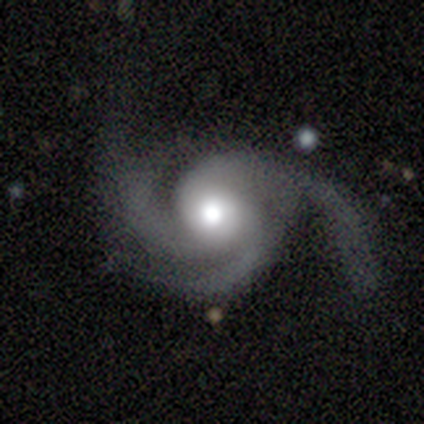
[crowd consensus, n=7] Q: Smooth or featured?
A: featured or disk (100%)
Q: Edge-on disk?
A: no (100%)
Q: Bar?
A: no (71%); runner-up: strong (14%)
Q: Spiral arms?
A: yes (100%)
Q: Spiral winding?
A: medium (71%); runner-up: tight (29%)
Q: Spiral arm count?
A: 3 (86%); runner-up: can't tell (14%)
Q: Bulge size?
A: moderate (86%); runner-up: large (14%)
Q: Merging?
A: none (71%); runner-up: minor disturbance (14%)